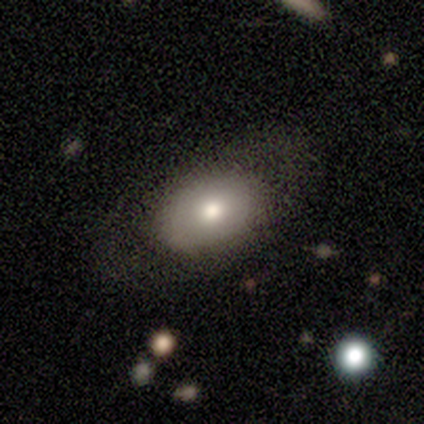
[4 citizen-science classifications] A smooth galaxy with no disk features (75%) that is in between round and cigar-shaped (100%).

Vote fractions:
- Smooth or featured? smooth: 75% / featured or disk: 25% / star or artifact: 0%
- How rounded? in between: 100% / round: 0% / cigar-shaped: 0%
- Merging? none: 100% / minor disturbance: 0% / major disturbance: 0% / merger: 0%